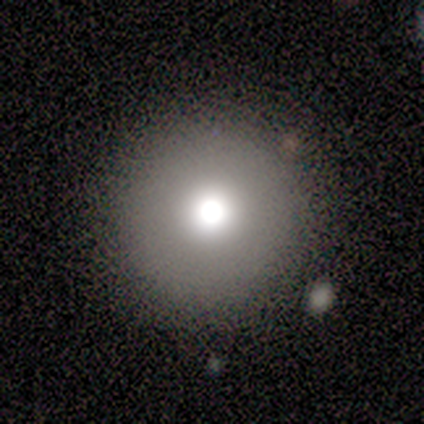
This is likely a smooth galaxy (60%). How rounded: clearly round (100%). Merging: clearly none (100%).